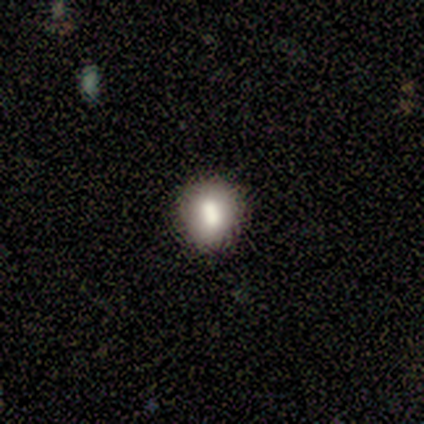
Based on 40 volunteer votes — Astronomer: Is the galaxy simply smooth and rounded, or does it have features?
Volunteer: smooth — 85%.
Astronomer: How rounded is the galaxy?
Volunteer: round — 71%.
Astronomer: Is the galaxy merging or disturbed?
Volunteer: none — 76%.